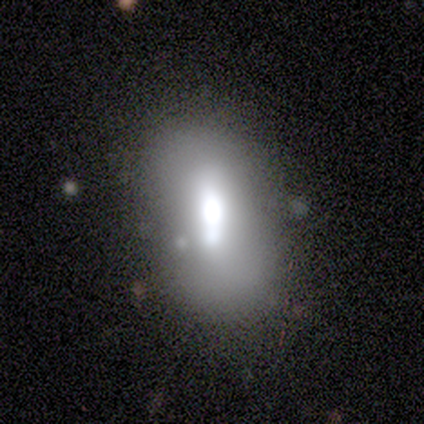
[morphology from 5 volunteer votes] type=smooth (80%); roundness=in between (75%); merging=none (60%).